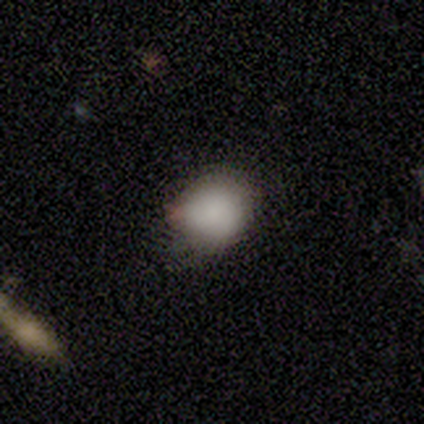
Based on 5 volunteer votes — Q: Smooth or featured?
A: smooth (100%)
Q: How rounded?
A: round (80%); runner-up: in between (20%)
Q: Merging?
A: none (80%); runner-up: minor disturbance (20%)